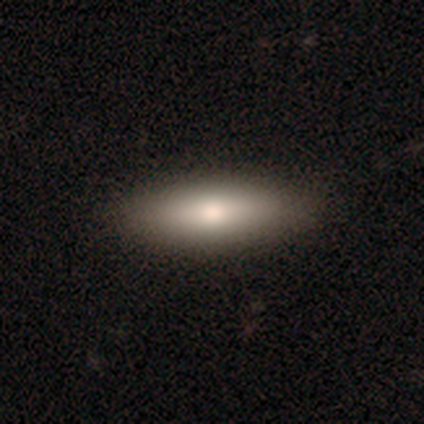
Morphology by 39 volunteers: Volunteers were most divided on "how rounded": in between: 57%, cigar-shaped: 43%, round: 0%. More confident: merging — none (87%); smooth or featured — smooth (72%).